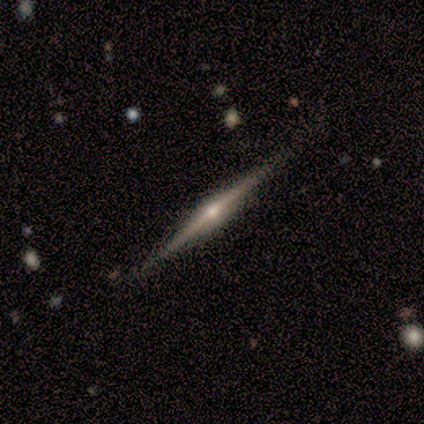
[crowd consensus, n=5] Smooth or featured? 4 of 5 (80%) said featured or disk. Edge-on disk? 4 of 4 (100%) said yes. Edge-on bulge? 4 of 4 (100%) said rounded. Merging? 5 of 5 (100%) said none.